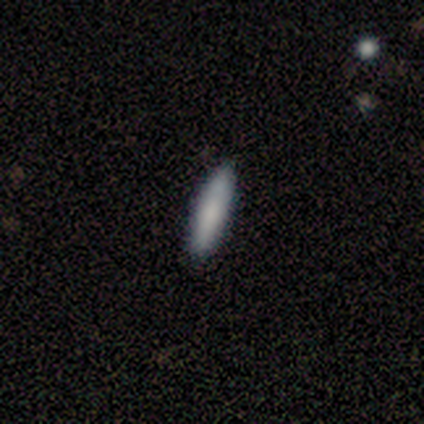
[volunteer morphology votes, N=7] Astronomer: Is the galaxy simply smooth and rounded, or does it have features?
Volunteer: smooth — 100%.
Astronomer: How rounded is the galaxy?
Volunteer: cigar-shaped — 86%.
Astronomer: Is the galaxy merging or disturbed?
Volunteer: none — 86%.